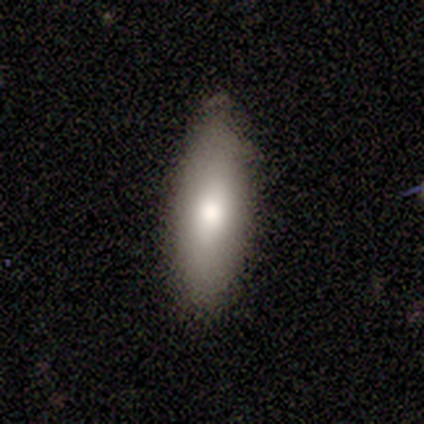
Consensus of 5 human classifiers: Smooth or featured?
  - smooth: 80% *
  - star or artifact: 20%
  - featured or disk: 0%
How rounded?
  - in between: 50% * (tied)
  - cigar-shaped: 50% * (tied)
  - round: 0%
Merging?
  - none: 75% *
  - minor disturbance: 25%
  - major disturbance: 0%
  - merger: 0%